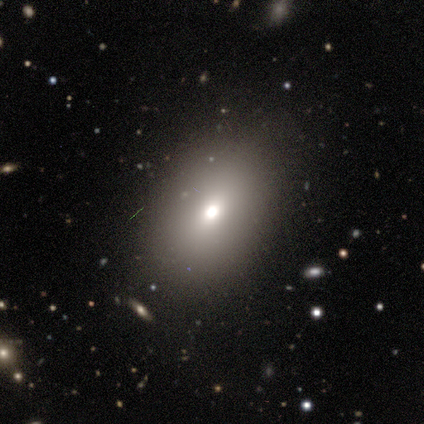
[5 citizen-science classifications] A smooth galaxy with no disk features (100%) that is in between round and cigar-shaped (100%). Merging: none (100%).